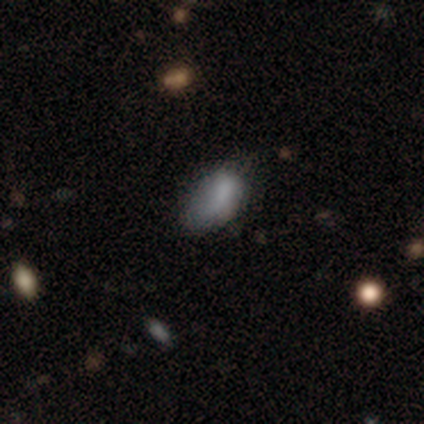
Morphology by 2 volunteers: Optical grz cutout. It shows a smooth galaxy with no disk features (50%, tied with featured or disk) that is in between round and cigar-shaped (100%). Merging: none (50%, tied with major disturbance).